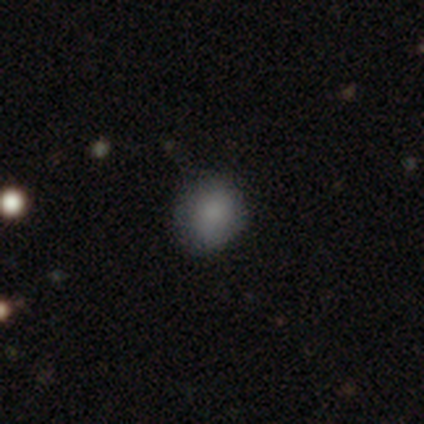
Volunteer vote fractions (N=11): Smooth or featured? smooth (91%)
How rounded? round (80%)
Merging? none (91%)